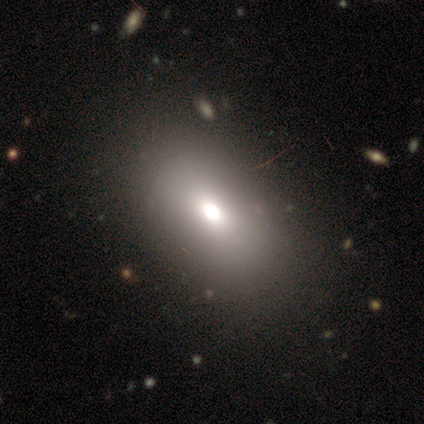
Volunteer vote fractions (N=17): Smooth or featured? smooth (88%)
How rounded? in between (93%)
Merging? none (88%)